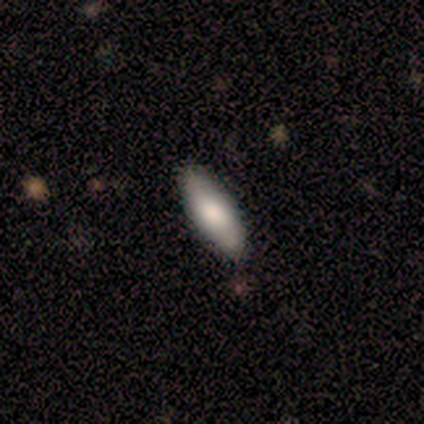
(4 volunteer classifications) smooth-or-featured: smooth: 100% | featured or disk: 0% | star or artifact: 0%
  how-rounded: in between: 75% | cigar-shaped: 25% | round: 0%
  merging: none: 100% | minor disturbance: 0% | major disturbance: 0% | merger: 0%